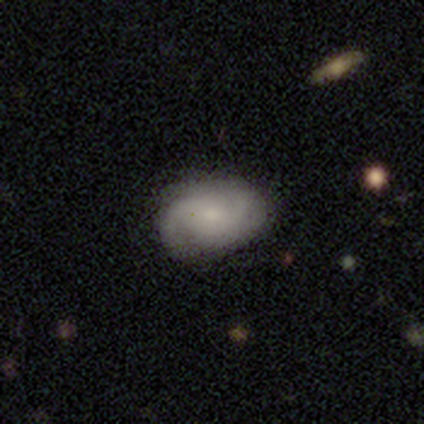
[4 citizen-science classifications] This is likely a featured or disk galaxy (75%). It is clearly not viewed edge-on (100%). Bar: clearly no (100%). Spiral arm pattern: clearly yes (100%). Spiral arm count: clearly 2 (100%). Spiral winding: likely medium (67%). Central bulge: marginally moderate (33%, tied with small and none). Merging: likely none (75%).